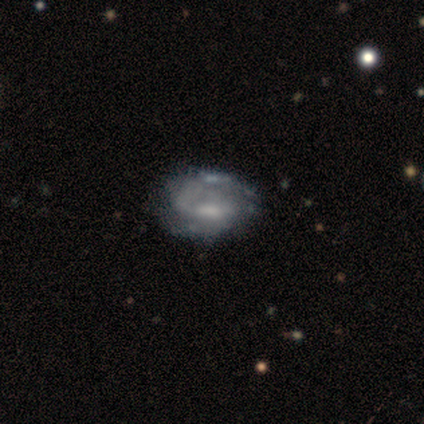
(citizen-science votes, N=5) Morphology: type=featured or disk (100%); edge-on=no (100%); bar=strong (60%); spiral arms=yes (80%); winding=medium (75%); arm count=2 (100%); bulge=moderate (40%, tied with none); merging=minor disturbance (60%).